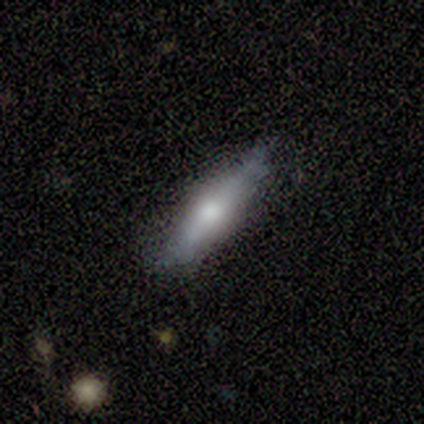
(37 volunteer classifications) Overall: smooth (49%; featured or disk 46%). How rounded: cigar-shaped (78%). Merging: none (66%).